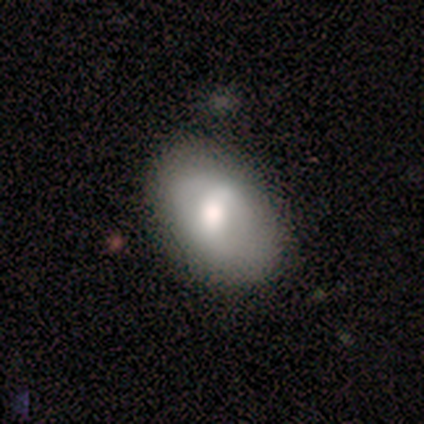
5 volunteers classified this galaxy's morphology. Smooth or featured?
  - featured or disk: 60% *
  - smooth: 40%
  - star or artifact: 0%
Edge-on disk?
  - no: 100% *
  - yes: 0%
Bar?
  - weak: 67% *
  - strong: 33%
  - no: 0%
Spiral arms?
  - yes: 67% *
  - no: 33%
Spiral winding?
  - tight: 50% * (tied)
  - loose: 50% * (tied)
  - medium: 0%
Spiral arm count?
  - 2: 50% * (tied)
  - can't tell: 50% * (tied)
  - 1: 0%
  - 3: 0%
  - 4: 0%
  - more than 4: 0%
Bulge size?
  - moderate: 67% *
  - large: 33%
  - dominant: 0%
  - small: 0%
  - none: 0%
Merging?
  - none: 60% *
  - minor disturbance: 40%
  - major disturbance: 0%
  - merger: 0%